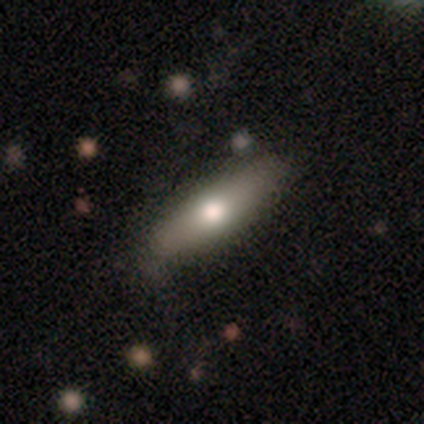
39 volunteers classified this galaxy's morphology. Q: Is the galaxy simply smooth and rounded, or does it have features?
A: smooth — 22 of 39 (56%).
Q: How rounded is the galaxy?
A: cigar-shaped — 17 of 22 (77%).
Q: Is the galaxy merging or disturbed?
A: none — 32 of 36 (89%).